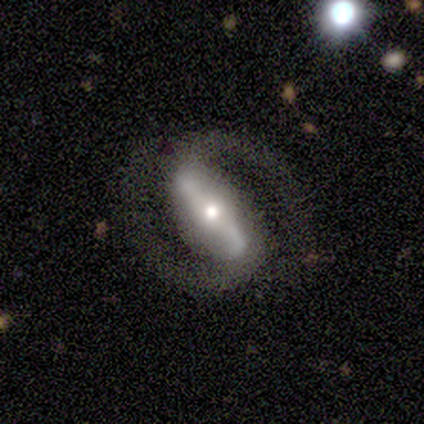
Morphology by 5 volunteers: This appears to be a featured or disk galaxy (80%) with a strong bar (100%), 2 (100%) tight (67%) spiral arms (100%) and a moderate central bulge (67%). Merging: none (60%).